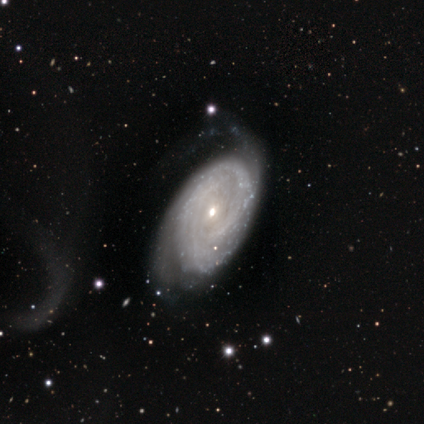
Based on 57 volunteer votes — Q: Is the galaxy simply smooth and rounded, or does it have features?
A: featured or disk — 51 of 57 (89%).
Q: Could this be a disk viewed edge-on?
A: no — 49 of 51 (96%).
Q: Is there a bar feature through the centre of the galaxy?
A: no — 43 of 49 (88%).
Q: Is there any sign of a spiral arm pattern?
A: yes — 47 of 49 (96%).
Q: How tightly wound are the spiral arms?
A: tight — 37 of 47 (79%).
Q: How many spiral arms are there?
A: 2 — 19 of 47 (40%).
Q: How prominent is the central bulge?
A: small — 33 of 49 (67%).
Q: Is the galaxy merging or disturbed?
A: minor disturbance — 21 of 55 (38%).